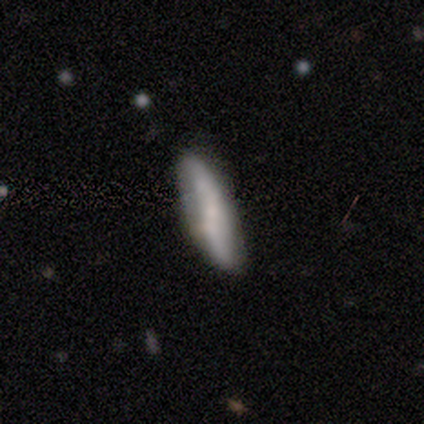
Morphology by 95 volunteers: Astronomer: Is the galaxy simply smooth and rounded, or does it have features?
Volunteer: smooth — 56% (runner-up: featured or disk, 42%).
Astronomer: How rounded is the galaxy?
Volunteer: cigar-shaped — 72%.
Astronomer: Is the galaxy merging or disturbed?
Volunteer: none — 70%.